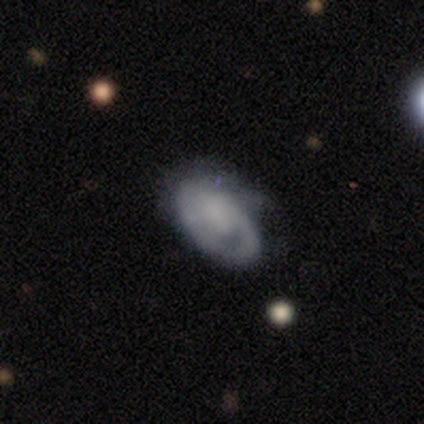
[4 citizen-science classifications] smooth-or-featured: smooth: 50% (tied) | featured or disk: 50% (tied) | star or artifact: 0%
  how-rounded: in between: 100% | round: 0% | cigar-shaped: 0%
  merging: none: 75% | minor disturbance: 25% | major disturbance: 0% | merger: 0%